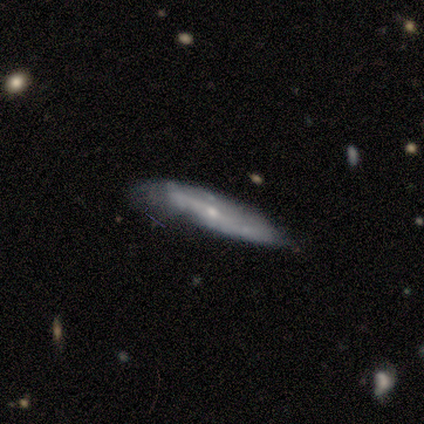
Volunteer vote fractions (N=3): This is likely a featured or disk galaxy (67%). It is clearly viewed edge-on (100%). Edge-on bulge: possibly none (50%, tied with rounded). Merging: likely none (67%).